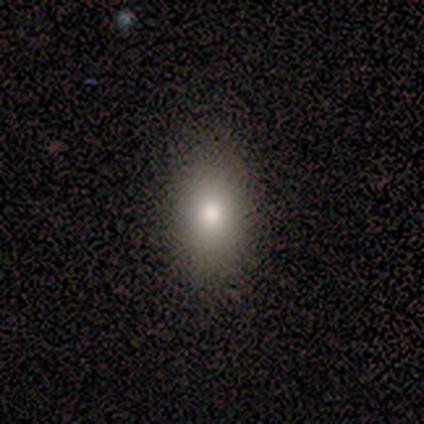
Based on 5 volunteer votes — Morphology: type=smooth (60%); roundness=round (67%); merging=none (80%).